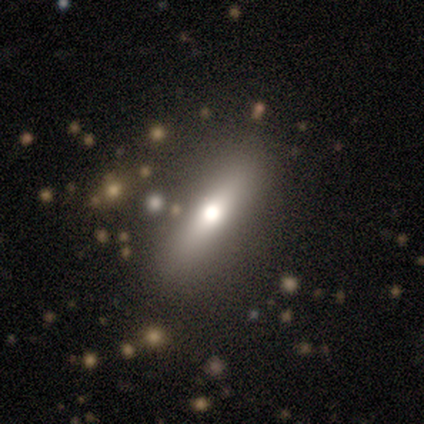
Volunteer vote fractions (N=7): smooth 71%, featured or disk 14%, star or artifact 14%. Down the decision tree: how rounded — in between (60%); merging — none (100%).